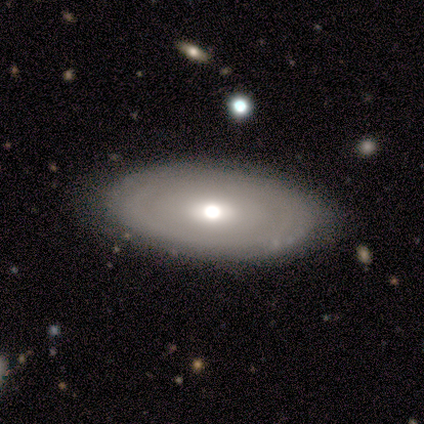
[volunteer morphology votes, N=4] Smooth or featured? 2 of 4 (50%, tied with featured or disk) said smooth. How rounded? 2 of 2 (100%) said in between. Merging? 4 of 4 (100%) said none.